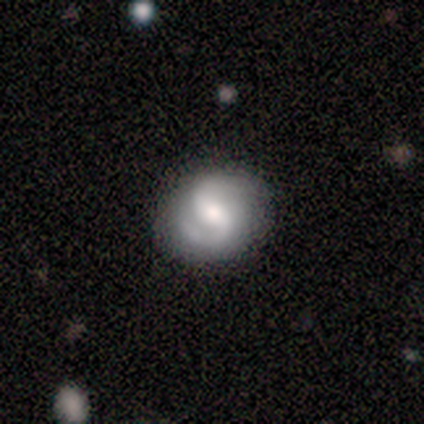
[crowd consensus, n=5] Q: Smooth or featured?
A: featured or disk (80%); runner-up: smooth (20%)
Q: Edge-on disk?
A: no (100%)
Q: Bar?
A: weak (75%); runner-up: no (25%)
Q: Spiral arms?
A: yes (75%); runner-up: no (25%)
Q: Spiral winding?
A: loose (67%); runner-up: medium (33%)
Q: Spiral arm count?
A: 2 (100%)
Q: Bulge size?
A: moderate (50%); runner-up: large (25%)
Q: Merging?
A: none (100%)